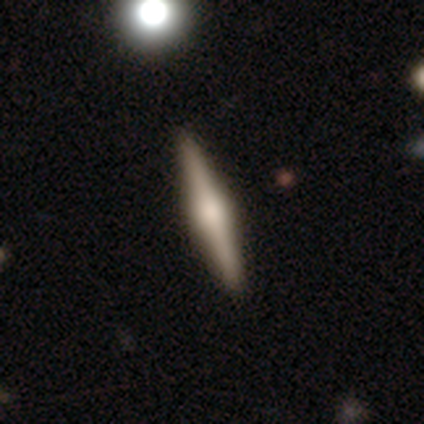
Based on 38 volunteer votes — A featured or disk galaxy (82%) viewed edge-on (97%) with a rounded central bulge (80%).

Vote fractions:
- Smooth or featured? featured or disk: 82% / smooth: 13% / star or artifact: 5%
- Edge-on disk? yes: 97% / no: 3%
- Edge-on bulge? rounded: 80% / boxy: 17% / none: 3%
- Merging? none: 69% / minor disturbance: 3% / merger: 3% / major disturbance: 0%